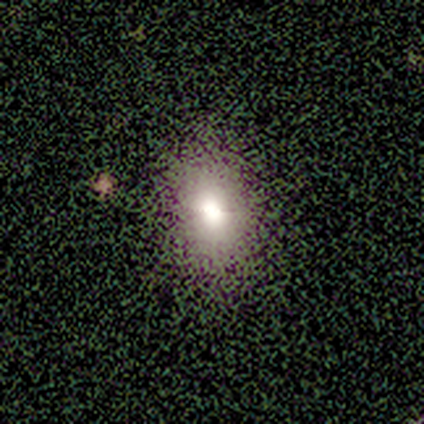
Smooth or featured? 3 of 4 (75%) said smooth. How rounded? 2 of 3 (67%) said round. Merging? 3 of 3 (100%) said none.